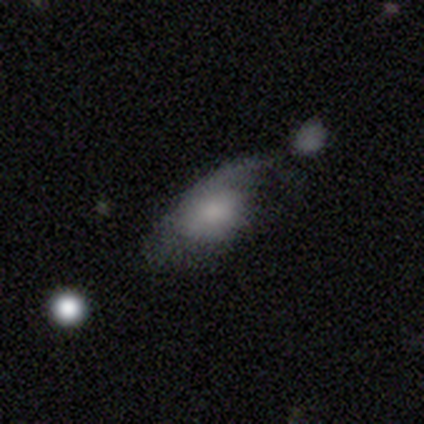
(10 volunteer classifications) Smooth or featured? 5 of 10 (50%, tied with featured or disk) said smooth. How rounded? 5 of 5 (100%) said in between. Merging? 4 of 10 (40%) said major disturbance.